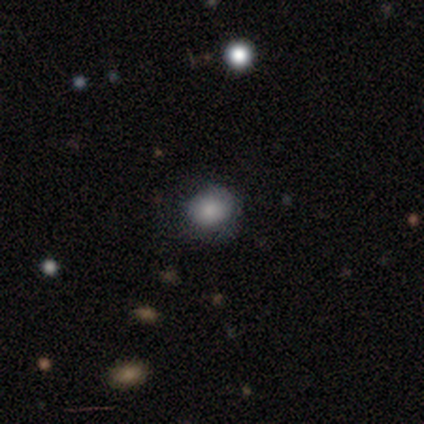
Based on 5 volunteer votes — This appears to be a smooth galaxy with no disk features (80%) that is round (50%, tied with in between). Merging: none (50%, tied with minor disturbance).